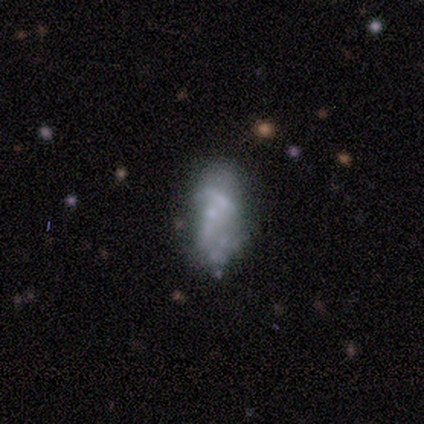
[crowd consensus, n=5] This is clearly a featured or disk galaxy (80%). It is clearly not viewed edge-on (100%). Bar: clearly no (100%). Spiral arm pattern: clearly no (100%). Central bulge: clearly none (100%). Merging: marginally major disturbance (40%, tied with merger).